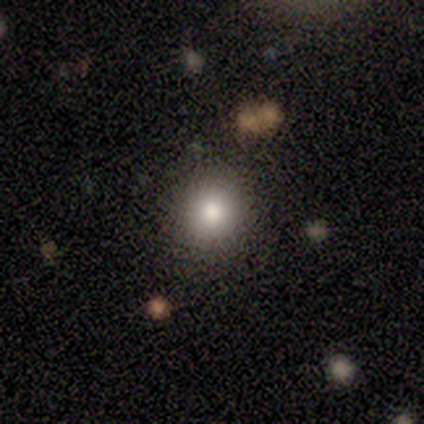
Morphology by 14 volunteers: smooth_or_featured: smooth (p=1.00)
how_rounded: round (p=0.79) [alt: in between p=0.21]
merging: none (p=0.79) [alt: minor disturbance p=0.14]